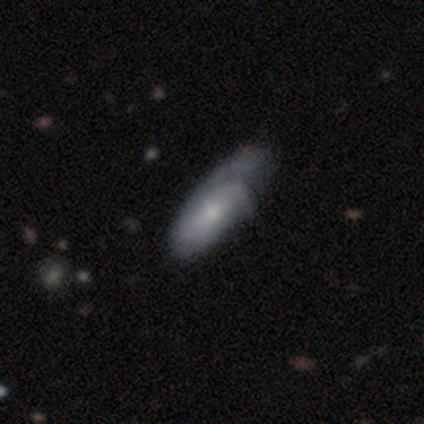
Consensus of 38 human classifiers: Smooth or featured?
  - featured or disk: 55% *
  - smooth: 45%
  - star or artifact: 0%
Edge-on disk?
  - no: 90% *
  - yes: 10%
Bar?
  - no: 84% *
  - weak: 16%
  - strong: 0%
Spiral arms?
  - yes: 74% *
  - no: 26%
Spiral winding?
  - tight: 43% * (tied)
  - medium: 43% * (tied)
  - loose: 14%
Spiral arm count?
  - 3: 36% * (tied)
  - can't tell: 36% * (tied)
  - 2: 29%
  - 1: 0%
  - 4: 0%
  - more than 4: 0%
Bulge size?
  - small: 63% *
  - moderate: 37%
  - dominant: 0%
  - large: 0%
  - none: 0%
Merging?
  - minor disturbance: 26% *
  - major disturbance: 24%
  - none: 21%
  - merger: 3%